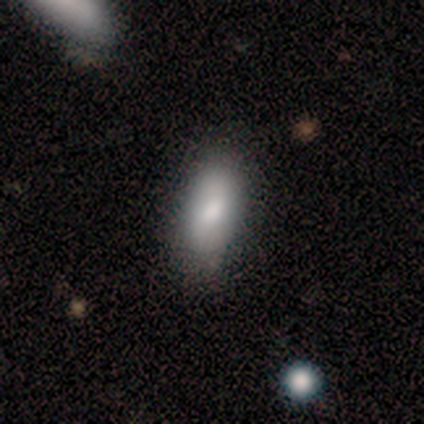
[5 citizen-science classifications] Overall: smooth (100%). How rounded: in between (100%). Merging: none (60%; minor disturbance 20%).